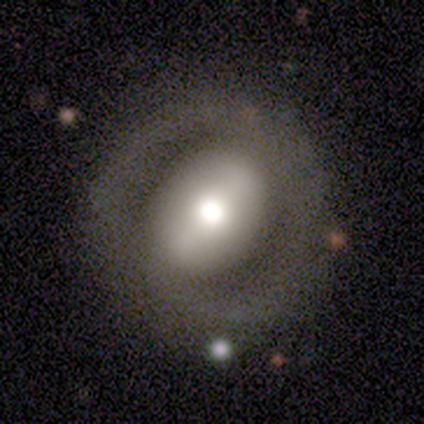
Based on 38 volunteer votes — smooth_or_featured: featured or disk (p=0.66) [alt: smooth p=0.26]
disk_edge_on: no (p=0.96) [alt: yes p=0.04]
bar: strong (p=0.50) [alt: weak p=0.25]
has_spiral_arms: no (p=0.54) [alt: yes p=0.46]
bulge_size: moderate (p=0.50) [alt: large p=0.33]
merging: none (p=0.54) [alt: minor disturbance p=0.26]